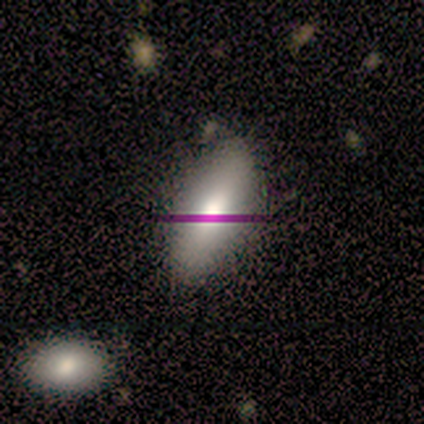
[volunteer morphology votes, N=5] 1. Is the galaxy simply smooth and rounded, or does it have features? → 60% star or artifact, 20% smooth, 20% featured or disk.